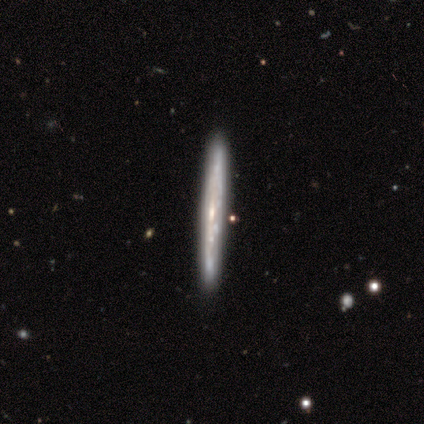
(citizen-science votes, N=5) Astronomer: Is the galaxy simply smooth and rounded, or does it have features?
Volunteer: featured or disk — 100%.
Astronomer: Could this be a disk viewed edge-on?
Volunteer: yes — 60% (runner-up: no, 40%).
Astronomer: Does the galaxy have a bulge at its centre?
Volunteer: none — 67%.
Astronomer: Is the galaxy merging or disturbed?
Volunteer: none — 100%.